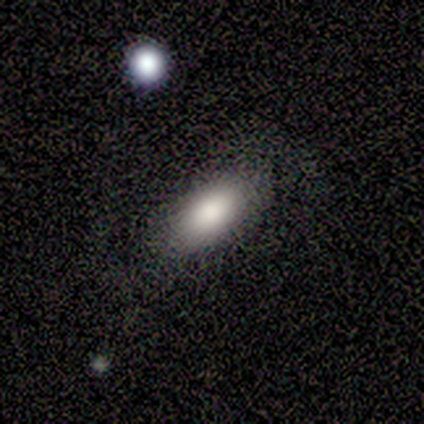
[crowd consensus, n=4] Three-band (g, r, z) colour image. It shows a smooth galaxy with no disk features (75%) that is in between round and cigar-shaped (100%). Merging: none (67%).